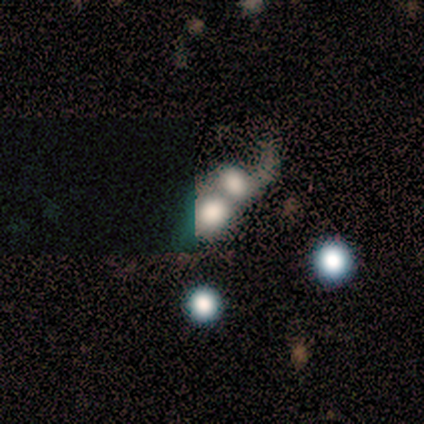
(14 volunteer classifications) Overall: featured or disk (43%; smooth 29%). Edge-on disk: no (100%). Bar: no (100%). Spiral arms: no (67%; yes 33%). Bulge size: large (33%; dominant 17%). Merging: merger (100%).